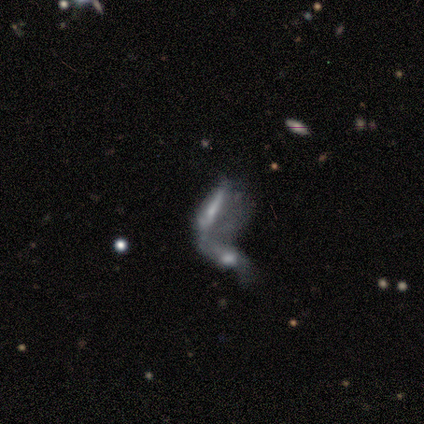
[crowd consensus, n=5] Smooth or featured: featured or disk — 80% (star or artifact — 20%)
Edge-on disk: no — 75% (yes — 25%)
Bar: weak — 67% (no — 33%)
Spiral arms: no — 67% (yes — 33%)
Bulge size: dominant — 33% (tied with moderate — 33%; small — 33%)
Merging: merger — 100%